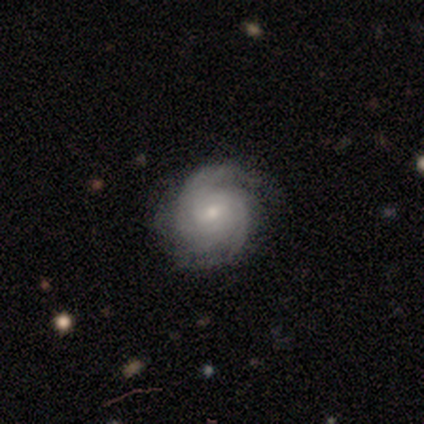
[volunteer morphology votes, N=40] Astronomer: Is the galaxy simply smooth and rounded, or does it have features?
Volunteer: featured or disk — 88%.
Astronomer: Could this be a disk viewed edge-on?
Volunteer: no — 94%.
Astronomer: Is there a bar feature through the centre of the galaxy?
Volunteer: weak — 48%, tied with no at 48%.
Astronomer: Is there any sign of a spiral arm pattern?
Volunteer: yes — 100%.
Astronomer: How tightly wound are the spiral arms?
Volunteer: tight — 64%.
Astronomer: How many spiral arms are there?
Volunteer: can't tell — 36% (runner-up: 2, 33%).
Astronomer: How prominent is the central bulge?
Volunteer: small — 73%.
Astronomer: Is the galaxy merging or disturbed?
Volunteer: none — 82%.